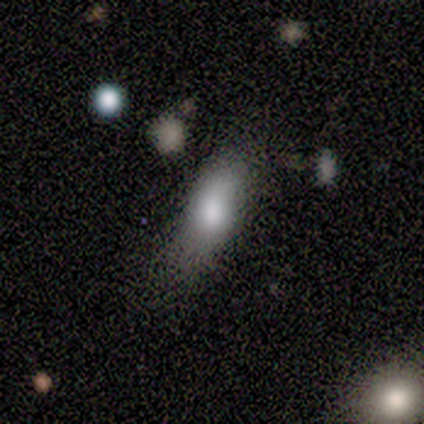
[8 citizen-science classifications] smooth-or-featured: smooth: 100% | featured or disk: 0% | star or artifact: 0%
  how-rounded: in between: 62% | cigar-shaped: 25% | round: 12%
  merging: none: 50% (tied) | minor disturbance: 50% (tied) | major disturbance: 0% | merger: 0%